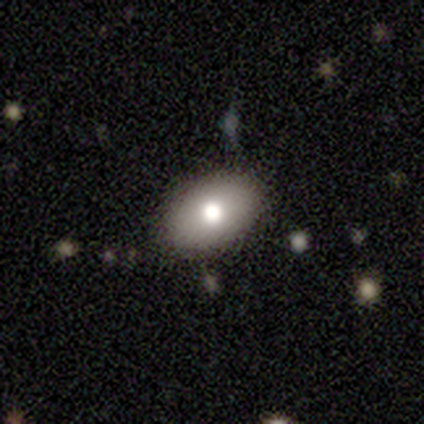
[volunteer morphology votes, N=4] Smooth or featured? smooth (100%)
How rounded? in between (100%)
Merging? none (75%)